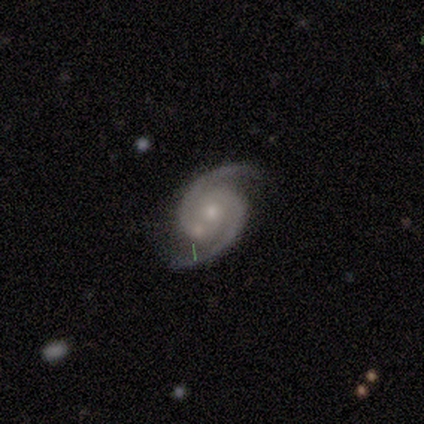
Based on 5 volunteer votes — smooth_or_featured: featured or disk (p=1.00)
disk_edge_on: no (p=1.00)
bar: weak (p=0.60) [alt: no p=0.40]
has_spiral_arms: yes (p=1.00)
spiral_winding: medium (p=0.40) [tied with: loose p=0.40]
spiral_arm_count: 2 (p=1.00)
bulge_size: small (p=0.80) [alt: moderate p=0.20]
merging: none (p=0.40) [tied with: merger p=0.40]